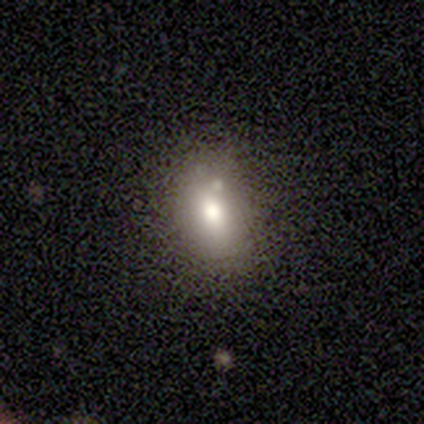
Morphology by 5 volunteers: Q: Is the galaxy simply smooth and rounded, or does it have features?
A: smooth — 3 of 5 (60%).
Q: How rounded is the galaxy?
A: in between — 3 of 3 (100%).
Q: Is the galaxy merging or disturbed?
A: none — 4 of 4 (100%).